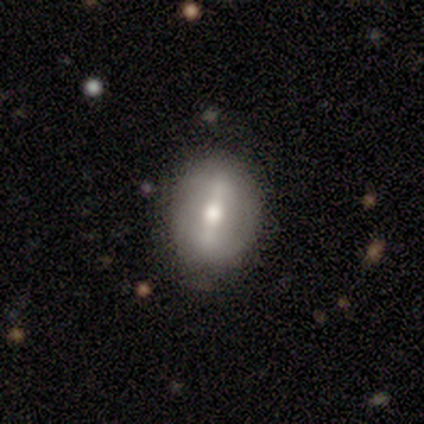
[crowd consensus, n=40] This appears to be a featured or disk galaxy (57%) with a strong bar (65%), no spiral arms (91%) and a moderate central bulge (74%). Merging: none (78%).